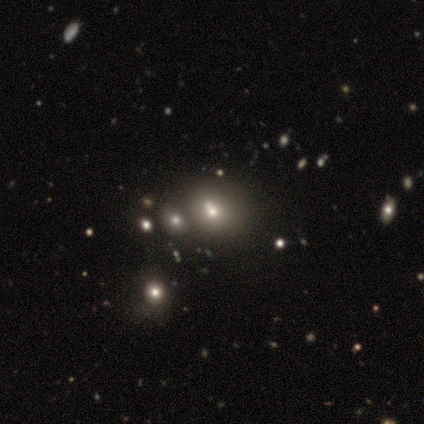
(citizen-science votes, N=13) smooth 69%, featured or disk 15%, star or artifact 15%. Down the decision tree: how rounded — round (78%); merging — none (73%).